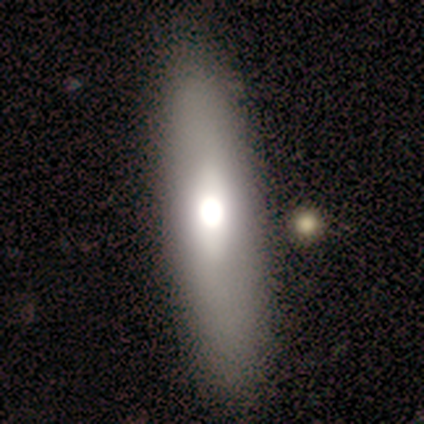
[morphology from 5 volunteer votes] A featured or disk galaxy (60%) viewed edge-on (67%) with no central bulge (100%). Merging: none (100%).